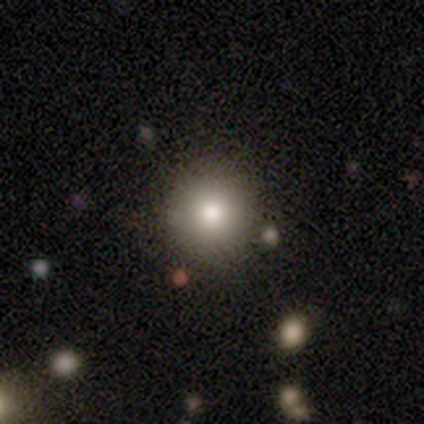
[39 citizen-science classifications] smooth-or-featured: smooth: 74% | featured or disk: 13% | star or artifact: 13%
  how-rounded: round: 93% | in between: 7% | cigar-shaped: 0%
  merging: none: 82% | minor disturbance: 6% | major disturbance: 6% | merger: 6%